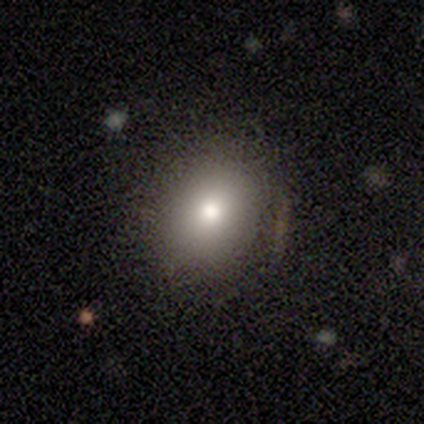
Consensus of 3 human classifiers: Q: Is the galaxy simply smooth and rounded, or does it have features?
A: smooth — 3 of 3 (100%).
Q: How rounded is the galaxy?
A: round — 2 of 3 (67%).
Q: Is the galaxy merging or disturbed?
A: none — 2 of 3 (67%).